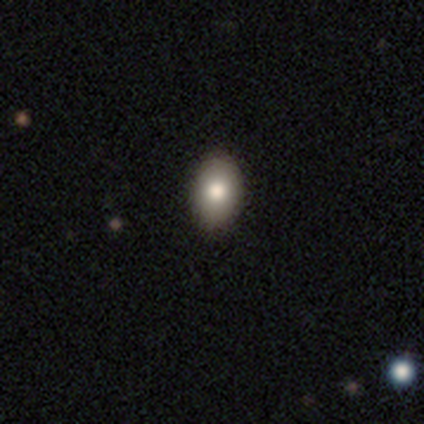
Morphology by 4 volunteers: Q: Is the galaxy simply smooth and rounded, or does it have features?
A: smooth — 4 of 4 (100%).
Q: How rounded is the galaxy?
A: in between — 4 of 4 (100%).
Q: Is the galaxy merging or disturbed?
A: none — 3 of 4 (75%).